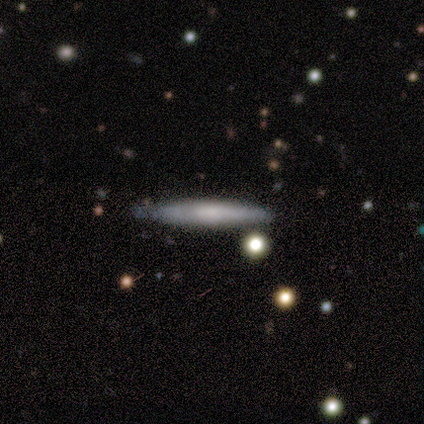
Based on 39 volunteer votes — This is likely a smooth galaxy (62%). How rounded: clearly cigar-shaped (96%). Merging: clearly none (95%).